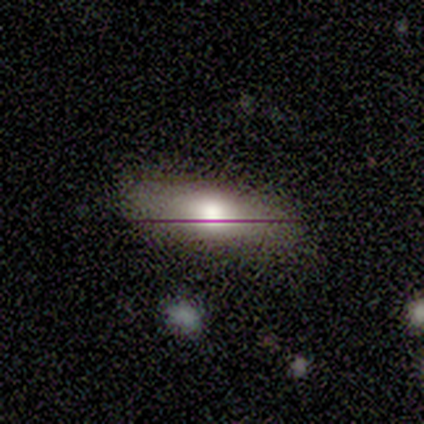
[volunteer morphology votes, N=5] smooth_or_featured: smooth (p=0.80) [alt: featured or disk p=0.20]
how_rounded: in between (p=1.00)
merging: none (p=0.80) [alt: major disturbance p=0.20]